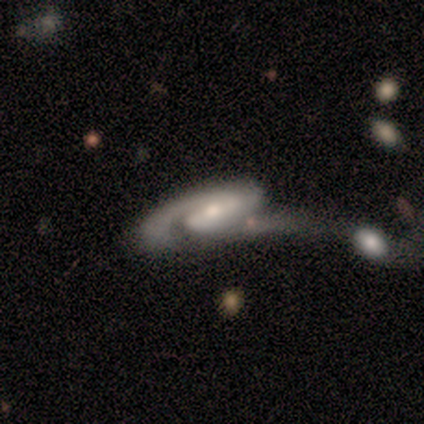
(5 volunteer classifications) Morphology: type=featured or disk (100%); edge-on=no (100%); bar=strong (40%, tied with weak); spiral arms=yes (100%); winding=medium (40%, tied with loose); arm count=2 (100%); bulge=small (80%); merging=minor disturbance (40%).